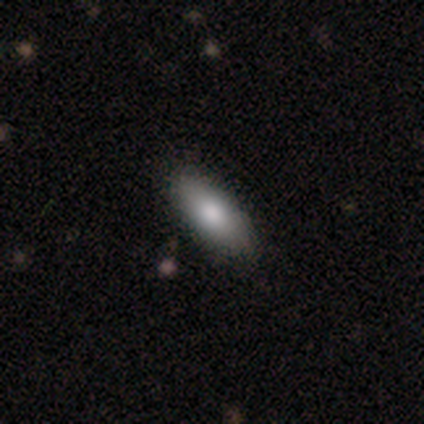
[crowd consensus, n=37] smooth-or-featured: smooth: 84% | featured or disk: 8% | star or artifact: 8%
  how-rounded: in between: 74% | cigar-shaped: 19% | round: 6%
  merging: none: 79% | minor disturbance: 18% | major disturbance: 3% | merger: 0%